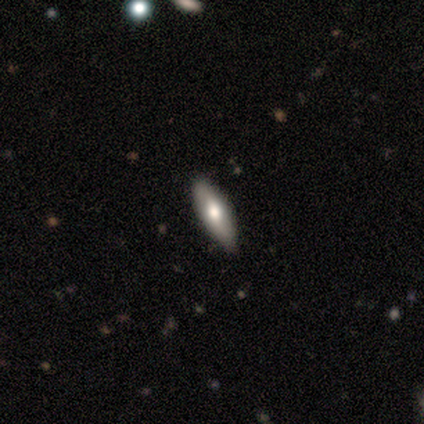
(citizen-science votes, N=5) Morphology: type=smooth (100%); roundness=cigar-shaped (100%); merging=none (40%, tied with minor disturbance).